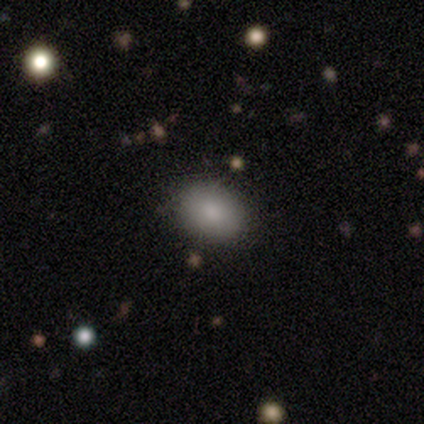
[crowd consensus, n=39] Morphology: type=smooth (79%); roundness=in between (68%); merging=none (89%).